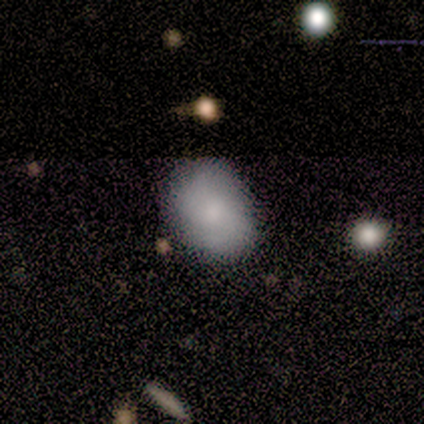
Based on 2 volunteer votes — Morphology: type=smooth (100%); roundness=in between (100%); merging=none (100%).